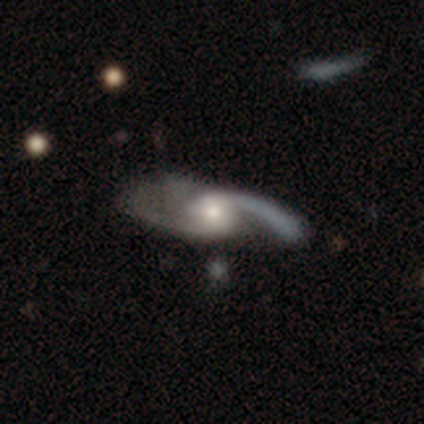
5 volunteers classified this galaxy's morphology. Smooth or featured? 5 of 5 (100%) said featured or disk. Edge-on disk? 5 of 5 (100%) said no. Bar? 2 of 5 (40%, tied with no) said weak. Spiral arms? 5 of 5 (100%) said yes. Spiral winding? 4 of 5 (80%) said medium. Spiral arm count? 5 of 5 (100%) said 2. Bulge size? 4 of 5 (80%) said moderate. Merging? 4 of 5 (80%) said none.